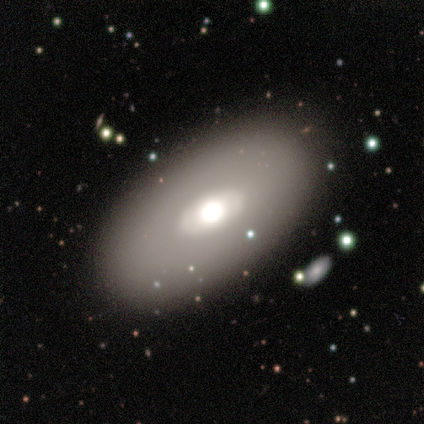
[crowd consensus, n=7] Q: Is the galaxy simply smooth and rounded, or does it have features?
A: featured or disk — 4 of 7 (57%).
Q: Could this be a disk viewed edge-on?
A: no — 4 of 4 (100%).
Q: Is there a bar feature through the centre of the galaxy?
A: strong — 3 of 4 (75%).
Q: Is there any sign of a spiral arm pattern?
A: no — 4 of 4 (100%).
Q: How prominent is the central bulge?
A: moderate — 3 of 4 (75%).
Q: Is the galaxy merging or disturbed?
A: none — 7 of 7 (100%).